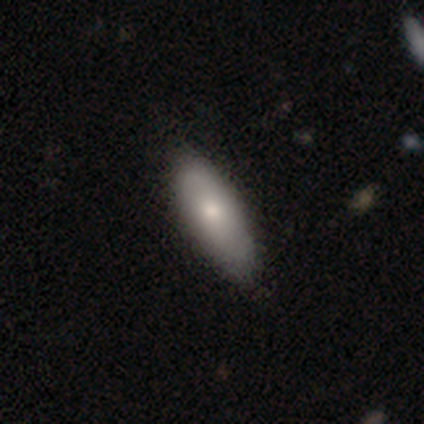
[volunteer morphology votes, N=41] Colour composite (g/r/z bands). It shows a smooth galaxy with no disk features (78%) that is in between round and cigar-shaped (75%). Merging: none (79%).